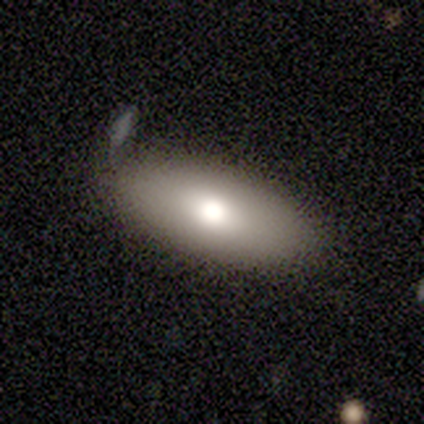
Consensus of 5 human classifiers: Overall: smooth (60%; featured or disk 40%). How rounded: in between (67%; cigar-shaped 33%). Merging: none (60%; minor disturbance 40%).